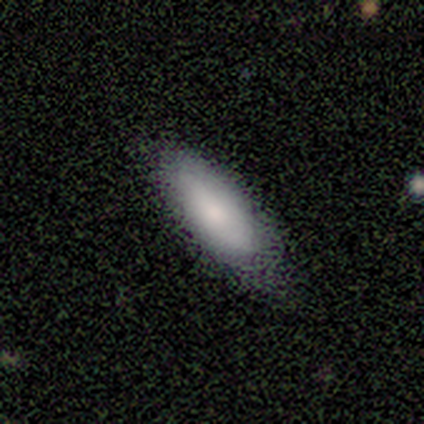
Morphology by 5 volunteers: This is clearly a smooth galaxy (80%). How rounded: clearly in between (100%). Merging: likely none (60%).